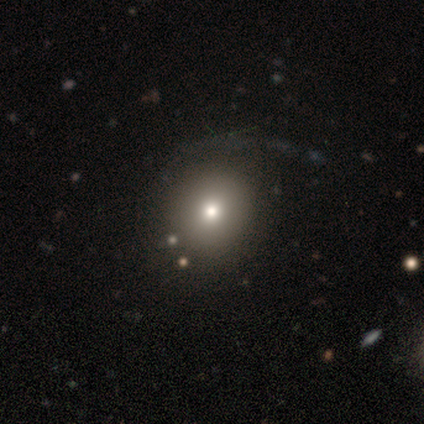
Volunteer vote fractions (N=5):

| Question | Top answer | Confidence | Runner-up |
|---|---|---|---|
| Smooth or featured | smooth | 60% | featured or disk (40%) |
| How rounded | round | 100% | — |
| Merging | minor disturbance | 60% | major disturbance (40%) |